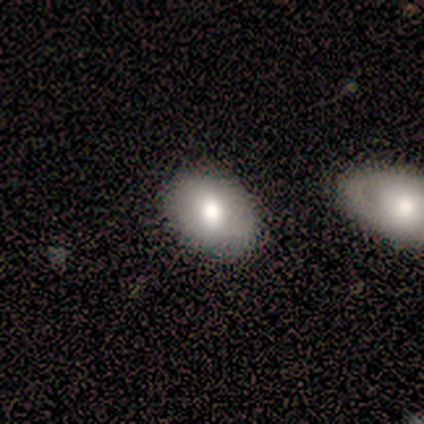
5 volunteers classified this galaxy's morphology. smooth-or-featured: smooth: 60% | featured or disk: 40% | star or artifact: 0%
  how-rounded: in between: 67% | round: 33% | cigar-shaped: 0%
  merging: none: 80% | merger: 20% | minor disturbance: 0% | major disturbance: 0%